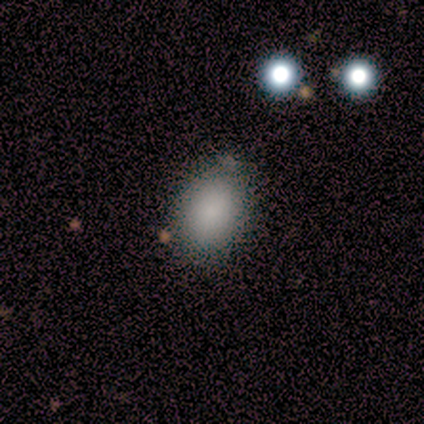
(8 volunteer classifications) Smooth or featured?
  - smooth: 100% *
  - featured or disk: 0%
  - star or artifact: 0%
How rounded?
  - in between: 88% *
  - round: 12%
  - cigar-shaped: 0%
Merging?
  - none: 100% *
  - minor disturbance: 0%
  - major disturbance: 0%
  - merger: 0%